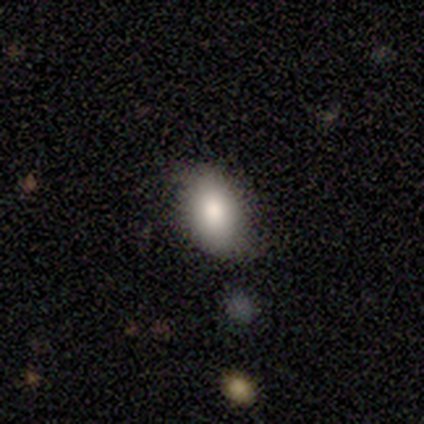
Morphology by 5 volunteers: smooth_or_featured: smooth (p=1.00)
how_rounded: in between (p=1.00)
merging: none (p=0.80) [alt: minor disturbance p=0.20]